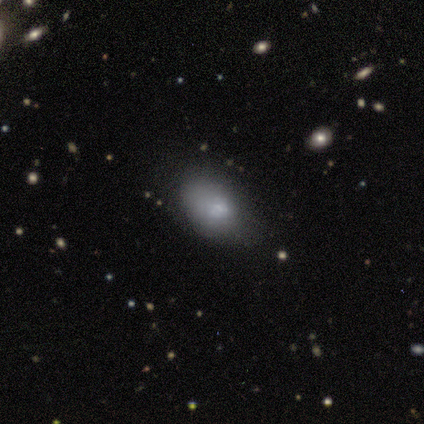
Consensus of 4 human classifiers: This is likely a smooth galaxy (75%). How rounded: clearly in between (100%). Merging: likely none (67%).